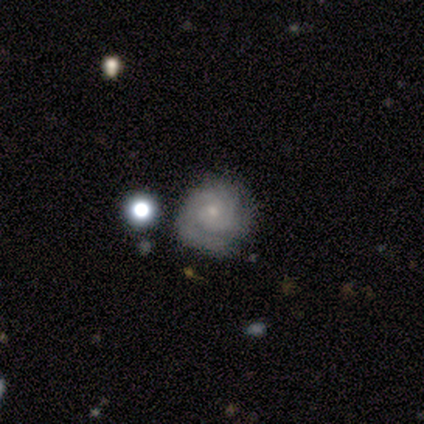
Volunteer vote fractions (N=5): Overall: featured or disk (100%). Edge-on disk: no (100%). Bar: no (80%). Spiral arms: yes (100%). Spiral arm count: 3 (40%; 1 20%). Spiral winding: tight (80%). Bulge size: small (60%; moderate 40%). Merging: none (80%).